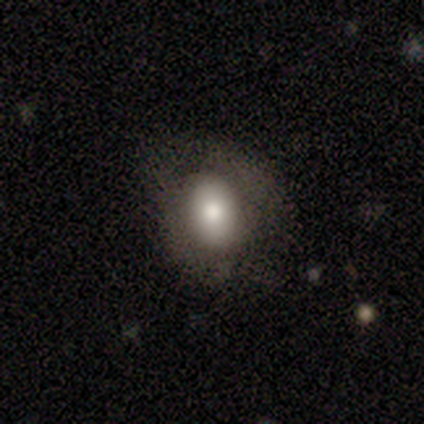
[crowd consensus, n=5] Q: Smooth or featured?
A: smooth (80%); runner-up: featured or disk (20%)
Q: How rounded?
A: in between (75%); runner-up: round (25%)
Q: Merging?
A: minor disturbance (80%); runner-up: major disturbance (20%)